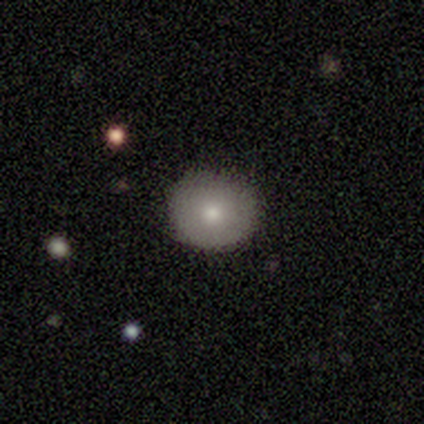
Consensus on every question: smooth or featured — smooth (100%); how rounded — round (100%); merging — none (100%).